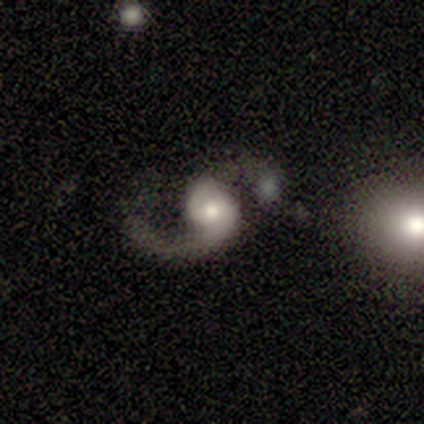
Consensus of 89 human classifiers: A featured or disk galaxy (92%) with no bar (72%), 2 (68%) loose (74%) spiral arms (98%) and a moderate central bulge (57%). Merging: none (33%).